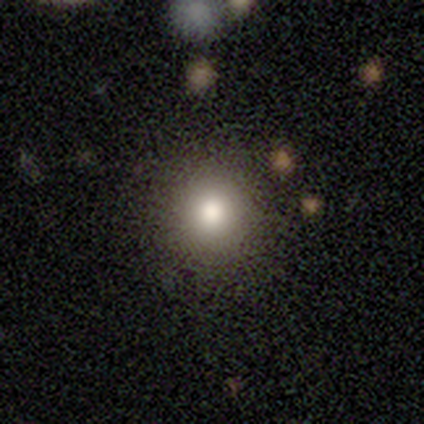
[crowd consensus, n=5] This is clearly a smooth galaxy (100%). How rounded: clearly round (100%). Merging: clearly none (100%).